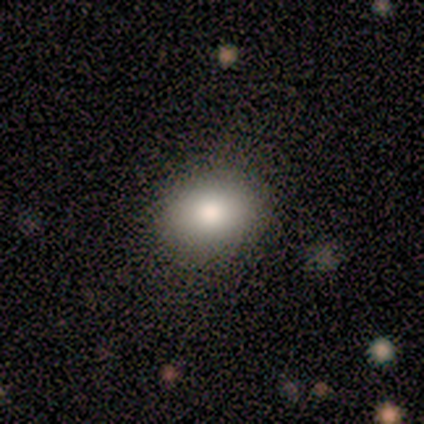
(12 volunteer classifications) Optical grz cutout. It shows a smooth galaxy with no disk features (75%) that is in between round and cigar-shaped (67%). Merging: none (91%).